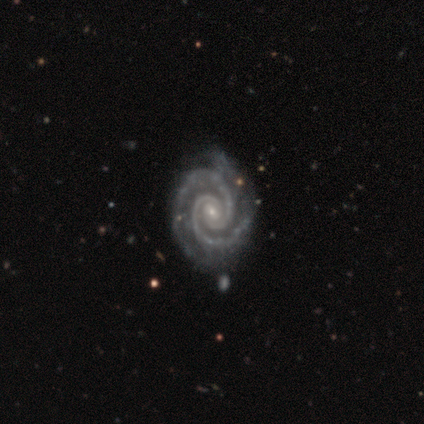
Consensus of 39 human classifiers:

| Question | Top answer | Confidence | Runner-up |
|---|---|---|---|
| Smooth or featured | featured or disk | 100% | — |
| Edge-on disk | no | 100% | — |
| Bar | no | 49% | weak (44%) |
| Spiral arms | yes | 100% | — |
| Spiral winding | tight | 90% | medium (8%) |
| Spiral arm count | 2 | 87% | 3 (10%) |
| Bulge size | small | 69% | moderate (26%) |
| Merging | none | 49% | minor disturbance (23%) |